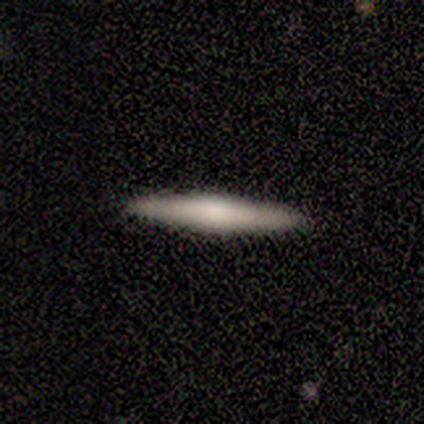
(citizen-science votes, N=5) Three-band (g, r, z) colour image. It shows a smooth galaxy with no disk features (80%) that is cigar-shaped (100%). Merging: none (100%).